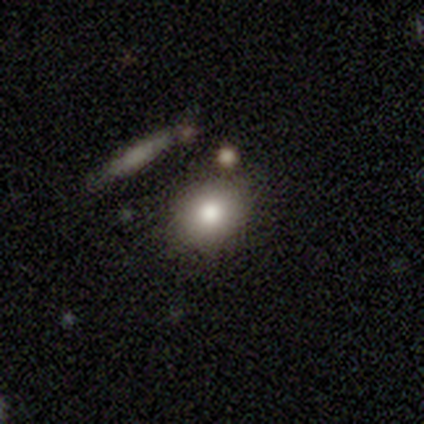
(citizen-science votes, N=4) Smooth or featured? smooth (100%)
How rounded? in between (75%)
Merging? none (75%)